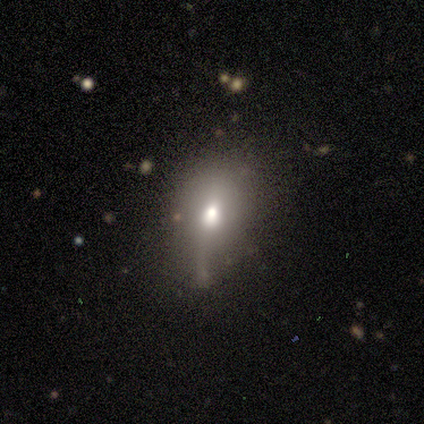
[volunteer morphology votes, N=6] type=smooth (50%); roundness=in between (100%); merging=none (60%).